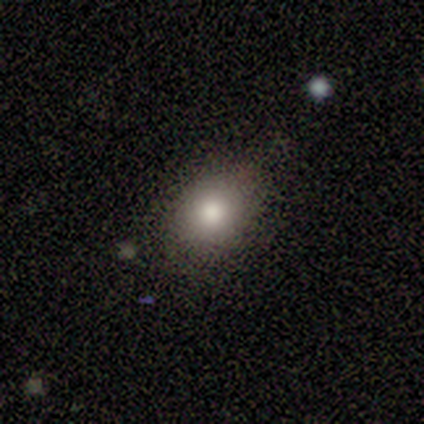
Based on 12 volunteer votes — A smooth galaxy with no disk features (92%) that is in between round and cigar-shaped (64%). Merging: none (83%).